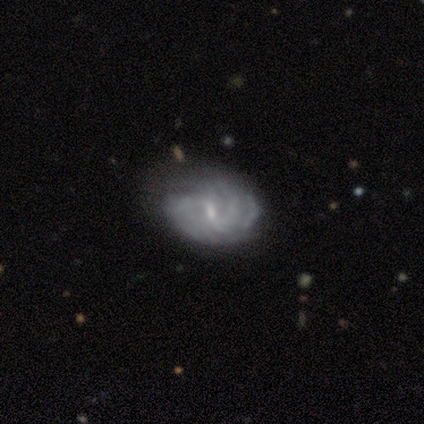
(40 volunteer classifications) Morphology: type=featured or disk (80%); edge-on=no (100%); bar=weak (69%); spiral arms=yes (94%); winding=tight (53%); arm count=can't tell (37%); bulge=small (66%); merging=none (62%).